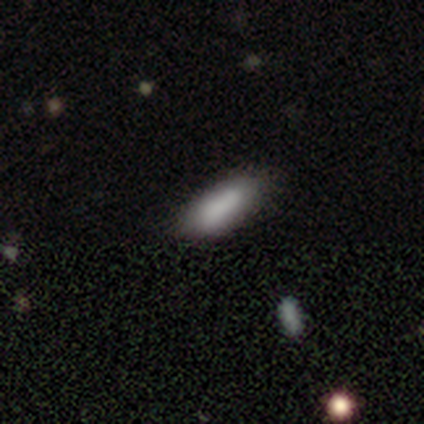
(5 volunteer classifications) This appears to be a smooth galaxy with no disk features (100%) that is in between round and cigar-shaped (100%). Merging: none (80%).